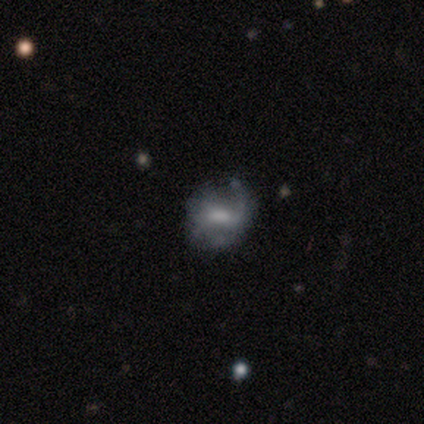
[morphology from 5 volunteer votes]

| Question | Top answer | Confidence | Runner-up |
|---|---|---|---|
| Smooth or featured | featured or disk | 60% | smooth (40%) |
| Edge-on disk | no | 100% | — |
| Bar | weak | 67% | strong (33%) |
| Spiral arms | yes | 100% | — |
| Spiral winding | tight | 33% | tied: medium (33%), loose (33%) |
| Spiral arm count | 2 | 67% | can't tell (33%) |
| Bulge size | small | 67% | none (33%) |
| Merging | minor disturbance | 80% | none (20%) |